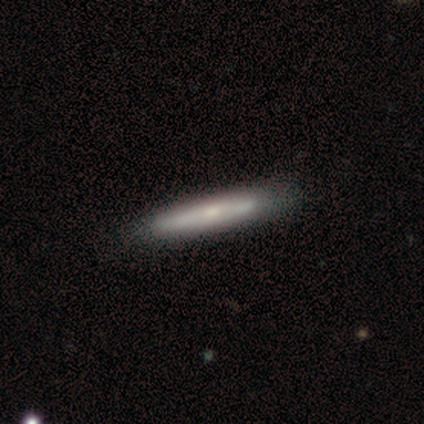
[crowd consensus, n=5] Q: Smooth or featured?
A: smooth (80%); runner-up: featured or disk (20%)
Q: How rounded?
A: cigar-shaped (100%)
Q: Merging?
A: none (100%)